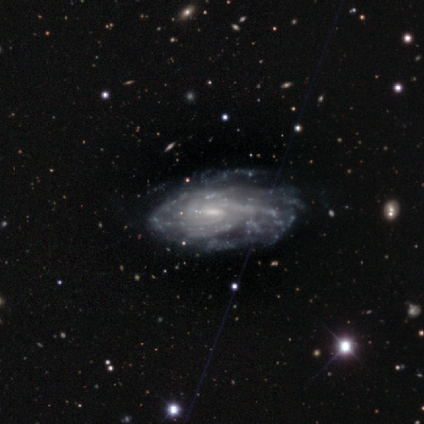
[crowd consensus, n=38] A featured or disk galaxy (95%) with a weak bar (50%), tight (61%) spiral arms (82%) and a small central bulge (56%). Merging: none (54%).